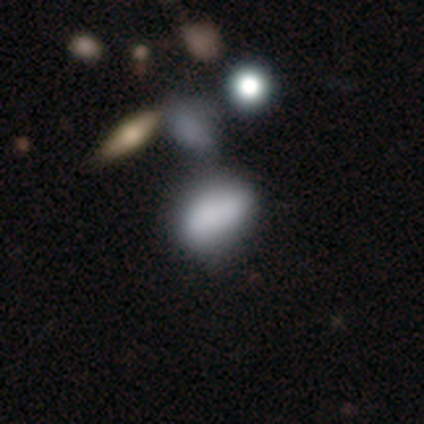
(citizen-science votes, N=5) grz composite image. It shows a smooth galaxy with no disk features (80%) that is in between round and cigar-shaped (100%). Merging: none (50%).